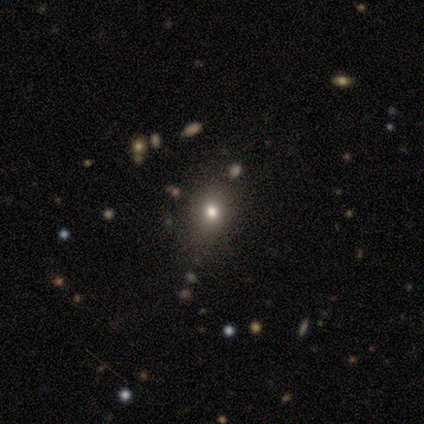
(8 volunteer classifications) A smooth galaxy with no disk features (75%) that is round (50%, tied with in between). Merging: none (88%).